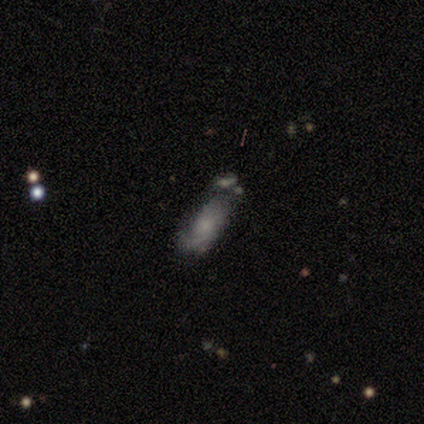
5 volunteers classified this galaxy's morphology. featured or disk 40% (tied), star or artifact 40% (tied), smooth 20%. Down the decision tree: edge-on disk — no (100%); bar — no (100%); spiral arms — yes (50%, tied with no); spiral arm count — 1 (100%); spiral winding — tight (100%); bulge size — small (50%, tied with none); merging — none (67%).